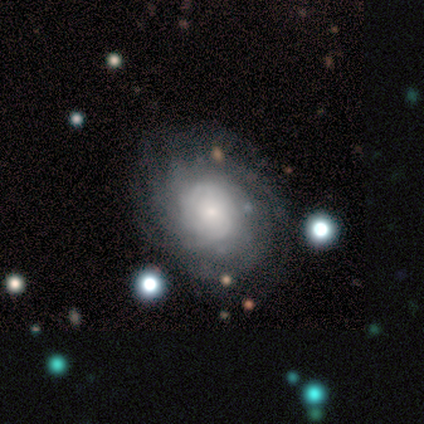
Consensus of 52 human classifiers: Overall: featured or disk (77%). Edge-on disk: no (98%). Bar: no (79%). Spiral arms: yes (85%). Spiral arm count: more than 4 (58%; can't tell 30%). Spiral winding: tight (94%). Bulge size: small (59%). Merging: none (68%).